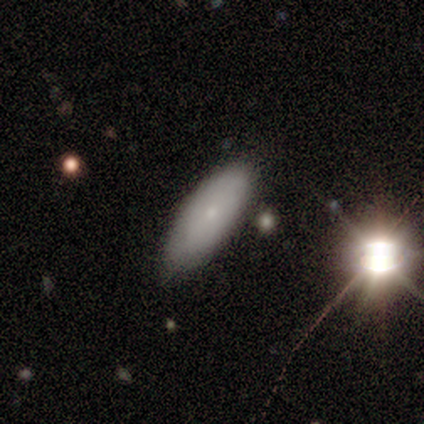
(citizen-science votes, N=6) Overall: smooth (100%). How rounded: in between (83%). Merging: none (67%; minor disturbance 33%).